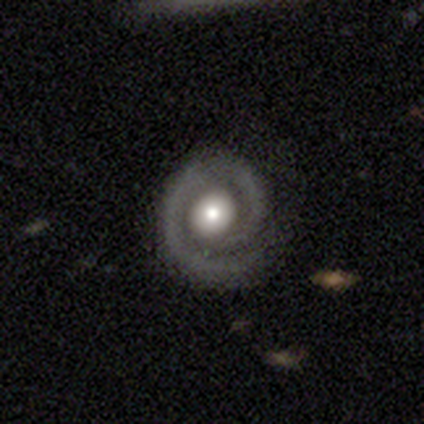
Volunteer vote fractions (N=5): A featured or disk galaxy (80%) with no bar (67%), 1 (67%) tight (67%) spiral arms (100%) and a large central bulge (67%).

Vote fractions:
- Smooth or featured? featured or disk: 80% / smooth: 20% / star or artifact: 0%
- Edge-on disk? no: 75% / yes: 25%
- Bar? no: 67% / weak: 33% / strong: 0%
- Spiral arms? yes: 100% / no: 0%
- Spiral winding? tight: 67% / medium: 33% / loose: 0%
- Spiral arm count? 1: 67% / 2: 33% / 3: 0% / 4: 0% / more than 4: 0% / can't tell: 0%
- Bulge size? large: 67% / moderate: 33% / dominant: 0% / small: 0% / none: 0%
- Merging? none: 100% / minor disturbance: 0% / major disturbance: 0% / merger: 0%